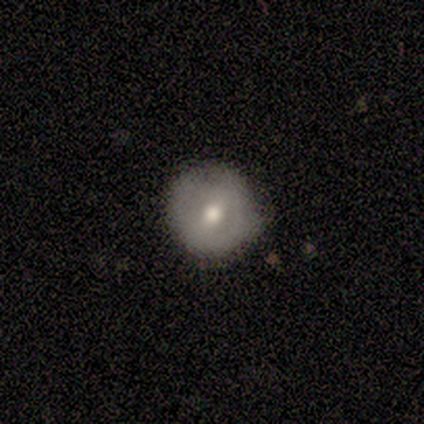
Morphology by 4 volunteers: A smooth galaxy with no disk features (75%) that is round (100%).

Vote fractions:
- Smooth or featured? smooth: 75% / featured or disk: 25% / star or artifact: 0%
- How rounded? round: 100% / in between: 0% / cigar-shaped: 0%
- Merging? none: 50% / minor disturbance: 25% / major disturbance: 25% / merger: 0%